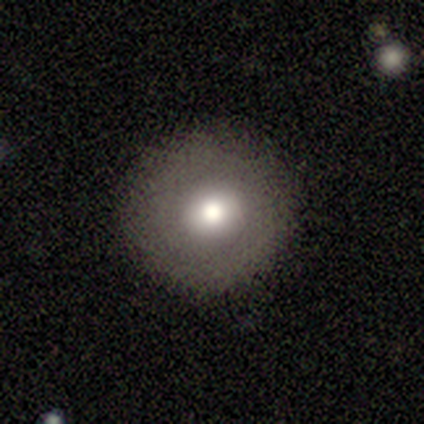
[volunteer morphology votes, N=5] Smooth or featured? 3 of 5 (60%) said smooth. How rounded? 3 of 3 (100%) said round. Merging? 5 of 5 (100%) said none.